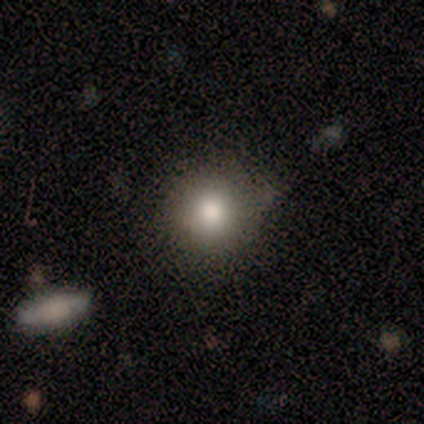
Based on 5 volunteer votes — Smooth or featured? smooth (60%)
How rounded? round (100%)
Merging? none (75%)